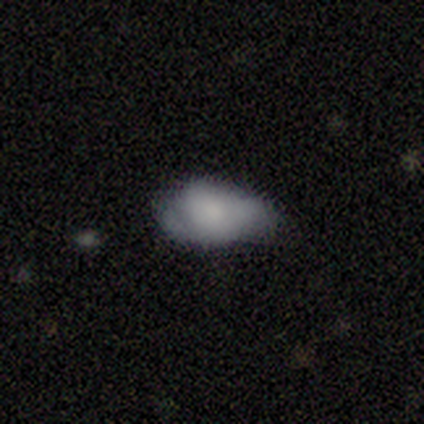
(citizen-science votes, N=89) smooth 70%, featured or disk 22%, star or artifact 8%. Down the decision tree: how rounded — in between (95%); merging — minor disturbance (54%).